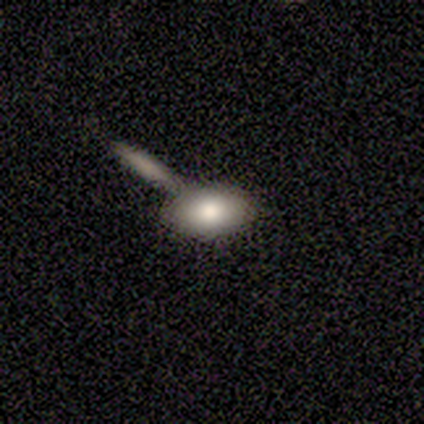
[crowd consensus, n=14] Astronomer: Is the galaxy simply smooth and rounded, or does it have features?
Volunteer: smooth — 86%.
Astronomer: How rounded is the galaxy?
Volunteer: in between — 100%.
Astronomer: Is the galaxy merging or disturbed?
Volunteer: none — 54% (runner-up: merger, 46%).